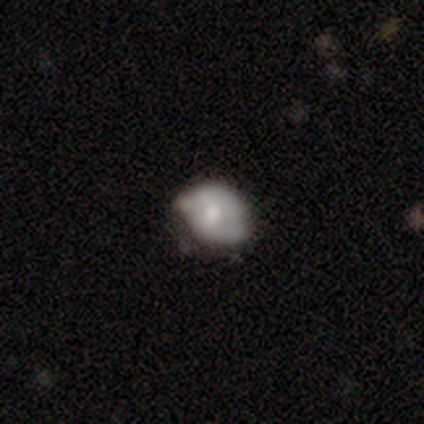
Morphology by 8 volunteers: smooth-or-featured: smooth: 62% | featured or disk: 25% | star or artifact: 12%
  how-rounded: in between: 60% | round: 40% | cigar-shaped: 0%
  merging: minor disturbance: 57% | merger: 29% | none: 14% | major disturbance: 0%